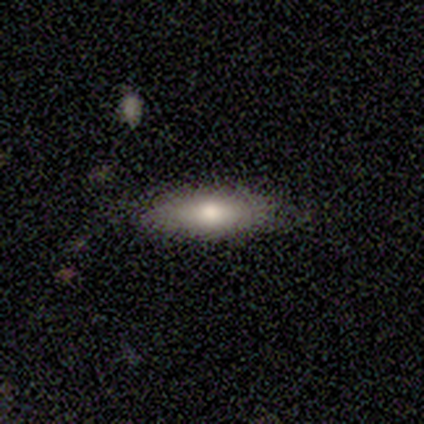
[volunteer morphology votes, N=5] smooth 60%, featured or disk 20%, star or artifact 20%. Down the decision tree: how rounded — cigar-shaped (67%); merging — none (100%).